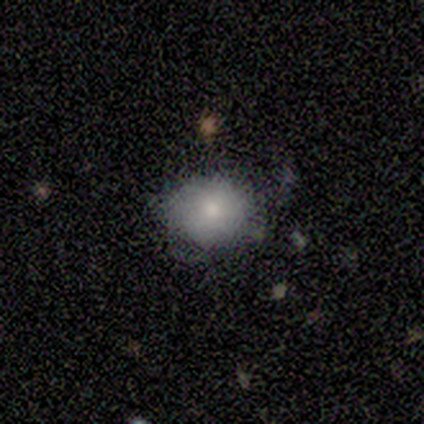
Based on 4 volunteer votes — A smooth galaxy with no disk features (100%) that is round (100%). Merging: none (75%).